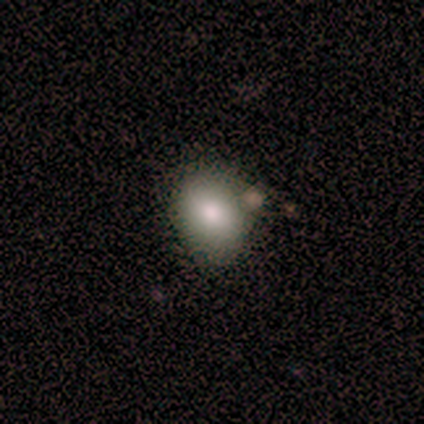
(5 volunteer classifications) This appears to be a smooth galaxy with no disk features (80%) that is in between round and cigar-shaped (75%). Merging: none (50%, tied with minor disturbance).